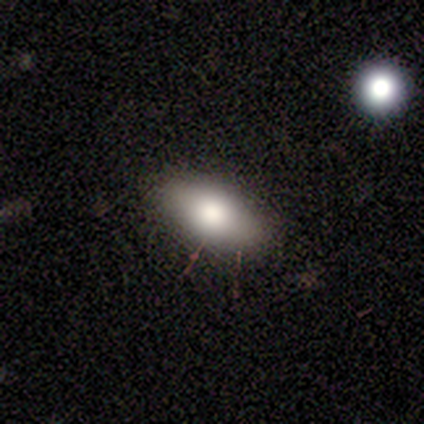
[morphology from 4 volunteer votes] Volunteers were most divided on "smooth or featured" (2-way tie): smooth: 50%, star or artifact: 50%, featured or disk: 0%. More confident: how rounded — in between (100%); merging — none (100%).